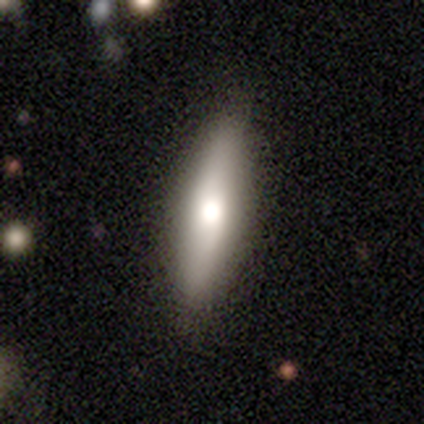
This is possibly a smooth galaxy (50%, tied with featured or disk). How rounded: likely cigar-shaped (60%). Merging: likely none (70%).